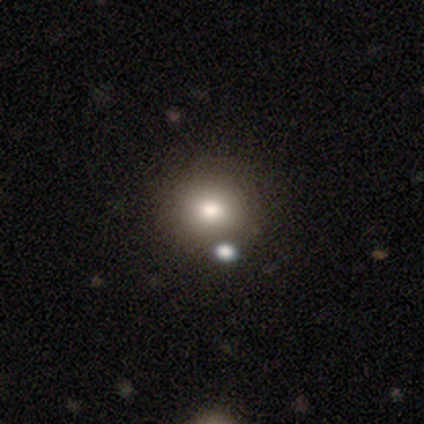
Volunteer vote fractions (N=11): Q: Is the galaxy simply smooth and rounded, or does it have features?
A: smooth — 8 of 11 (73%).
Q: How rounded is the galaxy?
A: round — 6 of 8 (75%).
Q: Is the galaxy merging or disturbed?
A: none — 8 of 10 (80%).